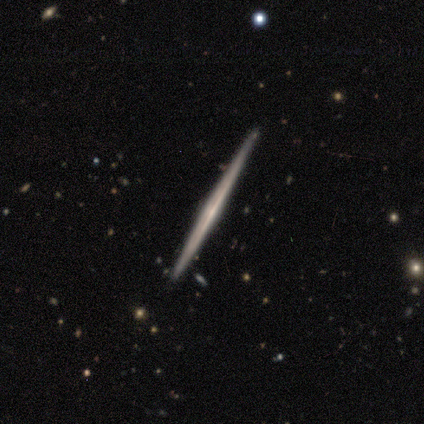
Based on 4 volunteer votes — Volunteers were most divided on "edge-on bulge": none: 75%, rounded: 25%, boxy: 0%. More confident: smooth or featured — featured or disk (100%); edge-on disk — yes (100%); merging — none (100%).